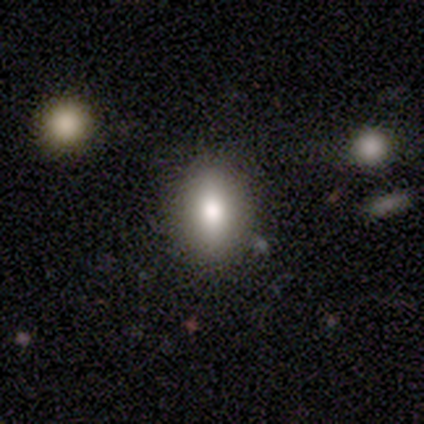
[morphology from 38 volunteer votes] smooth-or-featured: smooth: 79% | featured or disk: 16% | star or artifact: 5%
  how-rounded: in between: 73% | round: 13% | cigar-shaped: 13%
  merging: none: 86% | minor disturbance: 6% | merger: 6% | major disturbance: 3%